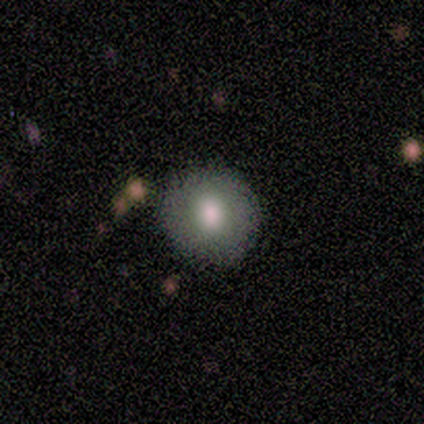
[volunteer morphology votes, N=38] Volunteers were most divided on "smooth or featured": smooth: 79%, featured or disk: 11%, star or artifact: 11%. More confident: how rounded — round (97%); merging — none (94%).